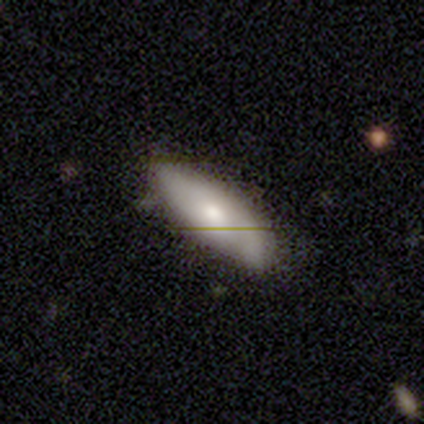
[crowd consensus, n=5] Smooth or featured: smooth — 60% (featured or disk — 40%)
How rounded: cigar-shaped — 67% (in between — 33%)
Merging: none — 60% (minor disturbance — 40%)